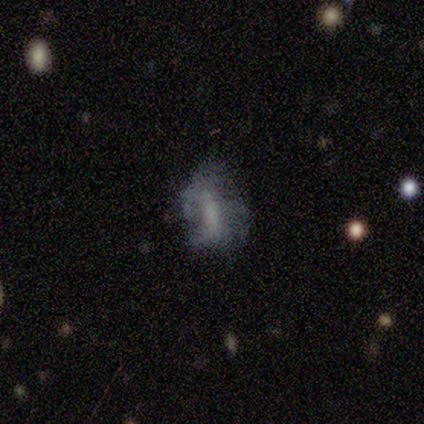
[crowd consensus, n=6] Overall: featured or disk (83%). Edge-on disk: no (100%). Bar: weak (80%). Spiral arms: no (60%; yes 40%). Bulge size: large (40%, tied with none). Merging: major disturbance (50%; none 33%).